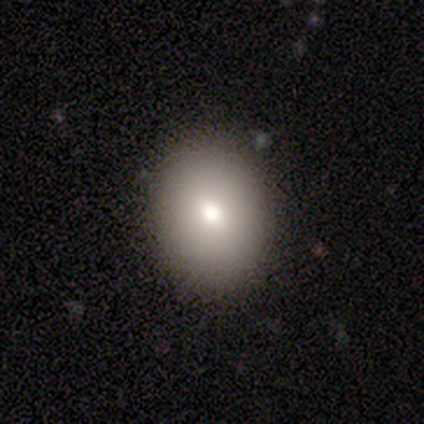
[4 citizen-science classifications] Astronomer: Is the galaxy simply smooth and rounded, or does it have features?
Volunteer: smooth — 100%.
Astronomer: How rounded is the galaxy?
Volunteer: round — 50%, tied with in between at 50%.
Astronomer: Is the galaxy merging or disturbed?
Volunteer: none — 100%.